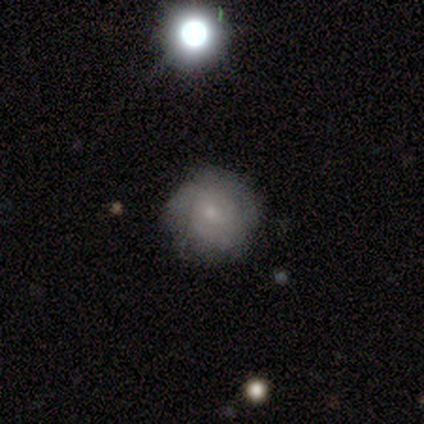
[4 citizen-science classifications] A smooth galaxy with no disk features (50%, tied with featured or disk) that is round (100%). Merging: none (75%).